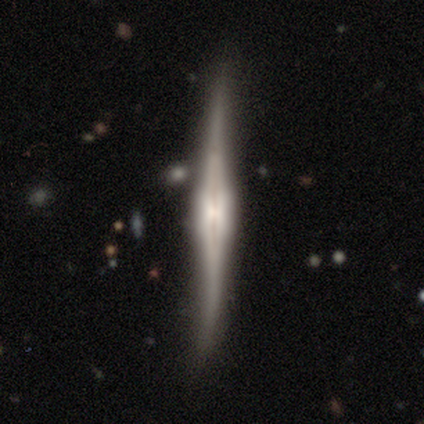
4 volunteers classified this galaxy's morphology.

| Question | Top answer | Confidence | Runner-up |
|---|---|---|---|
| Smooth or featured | featured or disk | 100% | — |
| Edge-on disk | yes | 100% | — |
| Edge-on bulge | boxy | 50% | none (25%) |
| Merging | none | 50% | minor disturbance (25%) |